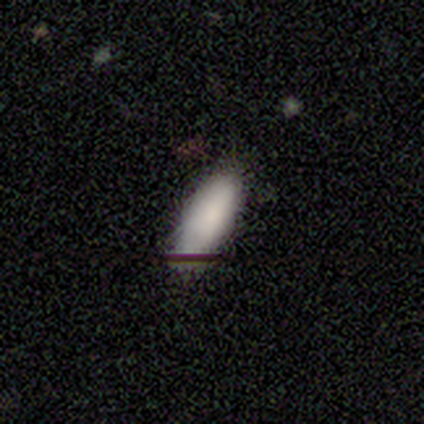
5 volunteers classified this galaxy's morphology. A smooth galaxy with no disk features (80%) that is in between round and cigar-shaped (100%).

Vote fractions:
- Smooth or featured? smooth: 80% / featured or disk: 20% / star or artifact: 0%
- How rounded? in between: 100% / round: 0% / cigar-shaped: 0%
- Merging? none: 80% / minor disturbance: 20% / major disturbance: 0% / merger: 0%